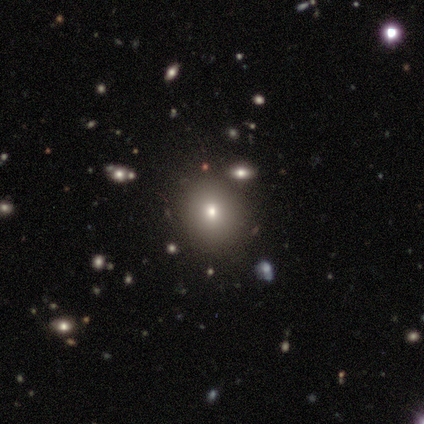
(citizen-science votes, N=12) This appears to be a smooth galaxy with no disk features (67%) that is round (75%). Merging: none (100%).